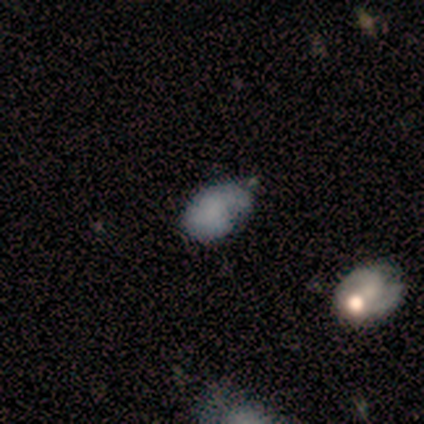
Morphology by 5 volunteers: smooth 80%, featured or disk 20%, star or artifact 0%. Down the decision tree: how rounded — in between (100%); merging — minor disturbance (60%).